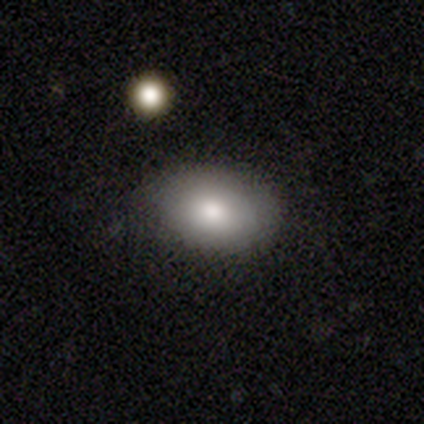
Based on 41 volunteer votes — smooth-or-featured: smooth: 90% | featured or disk: 7% | star or artifact: 2%
  how-rounded: in between: 89% | round: 8% | cigar-shaped: 3%
  merging: none: 80% | minor disturbance: 12% | major disturbance: 8% | merger: 0%